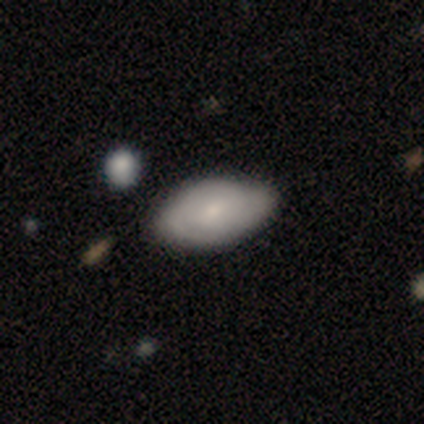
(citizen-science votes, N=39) A smooth galaxy with no disk features (49%, tied with featured or disk) that is in between round and cigar-shaped (100%).

Vote fractions:
- Smooth or featured? smooth: 49% (tied) / featured or disk: 49% (tied) / star or artifact: 3%
- How rounded? in between: 100% / round: 0% / cigar-shaped: 0%
- Merging? none: 61% / minor disturbance: 16% / major disturbance: 0% / merger: 0%